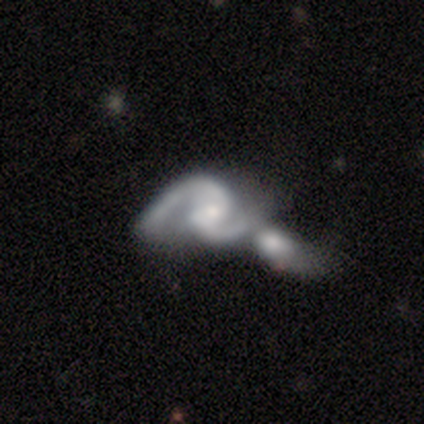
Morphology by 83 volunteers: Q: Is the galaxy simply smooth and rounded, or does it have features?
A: featured or disk — 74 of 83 (89%).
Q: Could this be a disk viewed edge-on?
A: no — 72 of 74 (97%).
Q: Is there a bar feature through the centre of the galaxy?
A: weak — 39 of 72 (54%).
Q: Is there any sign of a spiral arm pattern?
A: yes — 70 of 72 (97%).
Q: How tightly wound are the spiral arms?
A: medium — 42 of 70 (60%).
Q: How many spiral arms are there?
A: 2 — 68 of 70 (97%).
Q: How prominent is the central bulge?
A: small — 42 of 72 (58%).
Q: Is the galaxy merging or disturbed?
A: merger — 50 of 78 (64%).